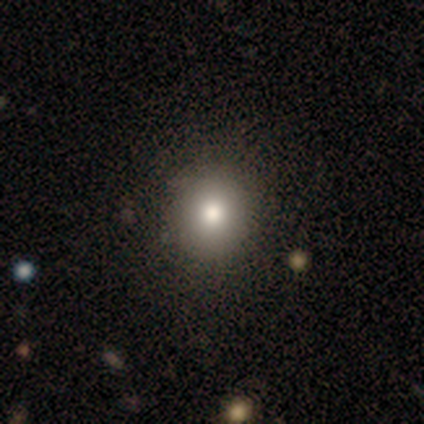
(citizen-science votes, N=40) smooth-or-featured: smooth: 72% | star or artifact: 18% | featured or disk: 10%
  how-rounded: round: 93% | in between: 7% | cigar-shaped: 0%
  merging: none: 70% | merger: 6% | minor disturbance: 0% | major disturbance: 0%